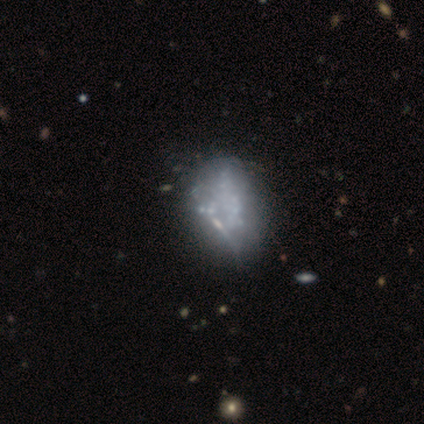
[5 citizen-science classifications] Volunteers were most divided on "smooth or featured": smooth: 60%, featured or disk: 40%, star or artifact: 0%. More confident: merging — none (80%); how rounded — in between (67%).